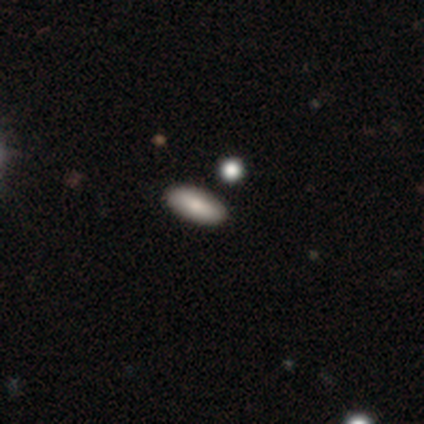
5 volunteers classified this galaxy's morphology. smooth-or-featured: smooth: 80% | featured or disk: 20% | star or artifact: 0%
  how-rounded: in between: 100% | round: 0% | cigar-shaped: 0%
  merging: none: 100% | minor disturbance: 0% | major disturbance: 0% | merger: 0%